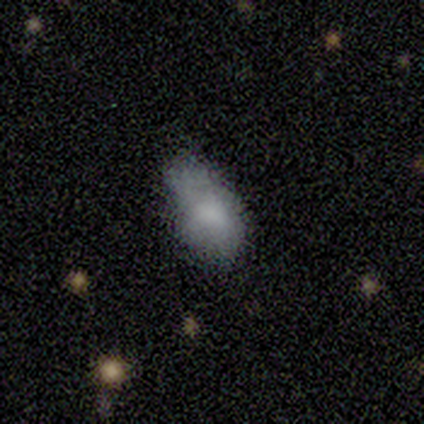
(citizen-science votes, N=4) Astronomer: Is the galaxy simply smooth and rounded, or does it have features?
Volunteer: smooth — 100%.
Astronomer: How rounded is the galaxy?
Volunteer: in between — 75%.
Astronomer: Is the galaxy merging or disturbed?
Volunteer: minor disturbance — 50%.